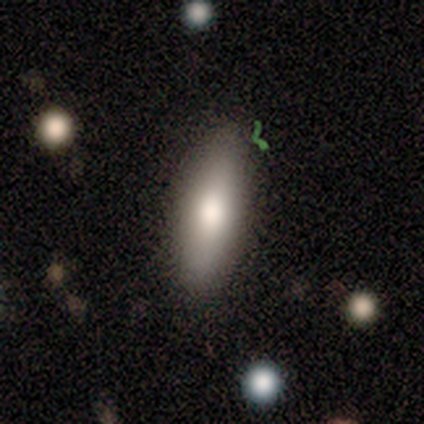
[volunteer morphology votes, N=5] smooth_or_featured: smooth (p=0.80) [alt: featured or disk p=0.20]
how_rounded: in between (p=0.50) [tied with: cigar-shaped p=0.50]
merging: none (p=0.80) [alt: merger p=0.20]